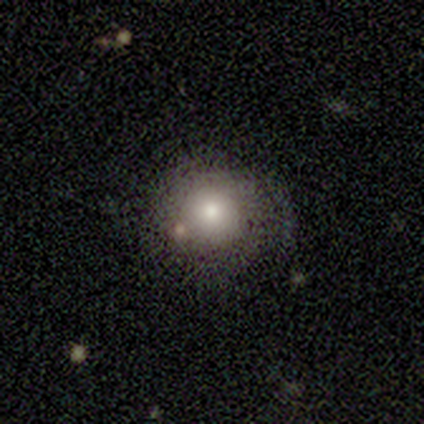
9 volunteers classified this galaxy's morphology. Q: Smooth or featured?
A: smooth (89%); runner-up: featured or disk (11%)
Q: How rounded?
A: round (100%)
Q: Merging?
A: none (56%); runner-up: minor disturbance (33%)